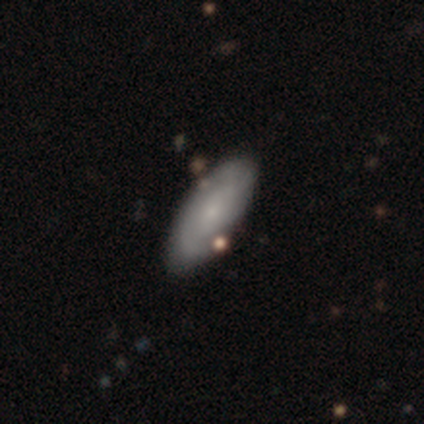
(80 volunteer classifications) Morphology: type=smooth (52%); roundness=in between (93%); merging=none (48%).